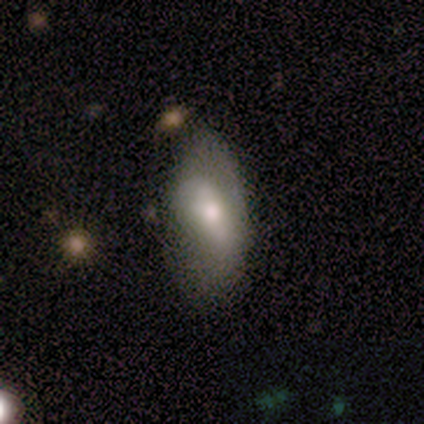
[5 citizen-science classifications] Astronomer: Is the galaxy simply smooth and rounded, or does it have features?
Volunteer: smooth — 60% (runner-up: featured or disk, 40%).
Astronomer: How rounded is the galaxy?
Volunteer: in between — 100%.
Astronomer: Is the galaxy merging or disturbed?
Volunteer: none — 80%.